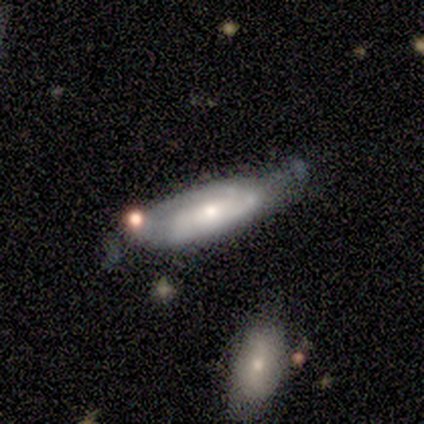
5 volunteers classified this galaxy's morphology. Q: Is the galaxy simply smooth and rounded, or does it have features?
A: smooth — 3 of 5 (60%).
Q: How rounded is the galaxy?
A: in between — 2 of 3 (67%).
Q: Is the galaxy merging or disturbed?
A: none — 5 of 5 (100%).